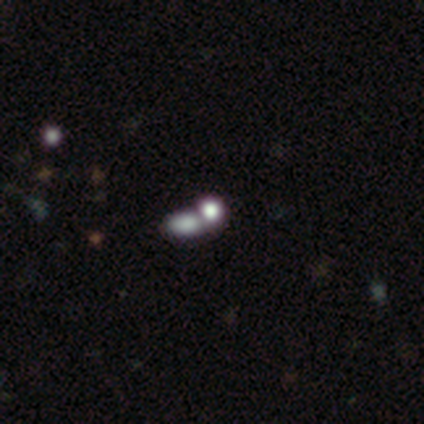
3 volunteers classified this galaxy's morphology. smooth-or-featured: smooth: 67% | star or artifact: 33% | featured or disk: 0%
  how-rounded: round: 50% (tied) | in between: 50% (tied) | cigar-shaped: 0%
  merging: none: 50% (tied) | merger: 50% (tied) | minor disturbance: 0% | major disturbance: 0%